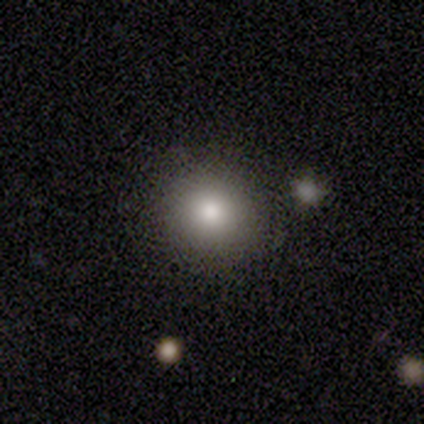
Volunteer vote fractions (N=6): Smooth or featured? 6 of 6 (100%) said smooth. How rounded? 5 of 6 (83%) said round. Merging? 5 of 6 (83%) said none.